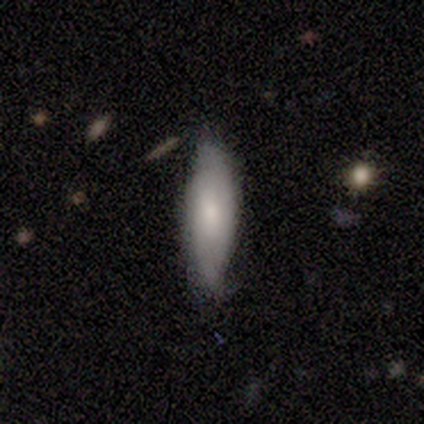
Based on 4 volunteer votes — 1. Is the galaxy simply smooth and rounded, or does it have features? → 75% smooth, 25% featured or disk, 0% star or artifact.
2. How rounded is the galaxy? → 67% cigar-shaped, 33% in between, 0% round.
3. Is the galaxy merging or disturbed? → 100% none, 0% minor disturbance, 0% major disturbance, 0% merger.